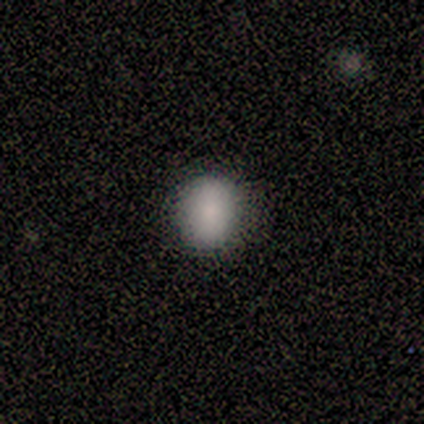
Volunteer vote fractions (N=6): Morphology: type=smooth (83%); roundness=round (80%); merging=none (100%).